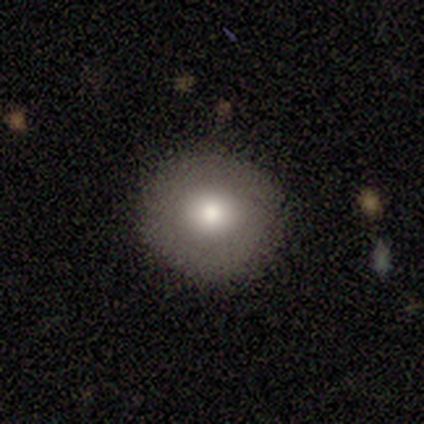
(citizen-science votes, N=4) Volunteers were most divided on "smooth or featured": smooth: 75%, featured or disk: 25%, star or artifact: 0%. More confident: how rounded — round (100%); merging — none (100%).